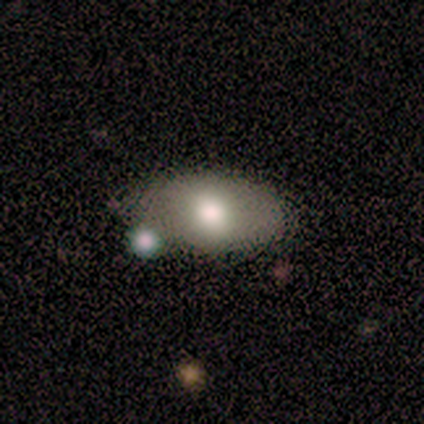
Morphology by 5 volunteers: A smooth galaxy with no disk features (100%) that is in between round and cigar-shaped (80%).

Vote fractions:
- Smooth or featured? smooth: 100% / featured or disk: 0% / star or artifact: 0%
- How rounded? in between: 80% / round: 20% / cigar-shaped: 0%
- Merging? none: 60% / minor disturbance: 20% / major disturbance: 20% / merger: 0%